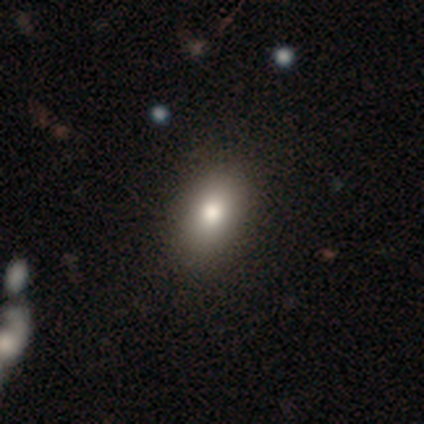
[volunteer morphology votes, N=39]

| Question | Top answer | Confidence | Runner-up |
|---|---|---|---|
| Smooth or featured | smooth | 77% | featured or disk (21%) |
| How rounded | in between | 90% | round (10%) |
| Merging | none | 71% | minor disturbance (5%) |